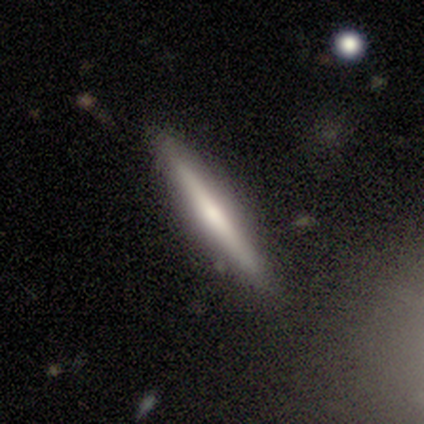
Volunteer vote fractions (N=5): Smooth or featured: featured or disk — 60% (smooth — 40%)
Edge-on disk: yes — 100%
Edge-on bulge: rounded — 67% (none — 33%)
Merging: none — 100%